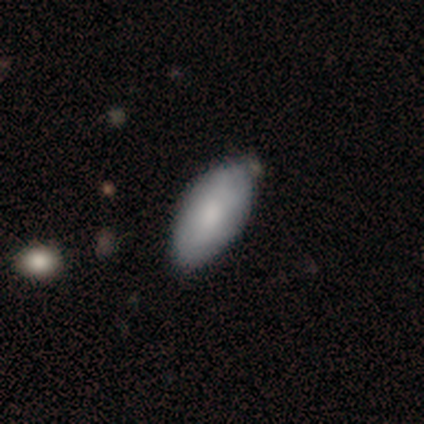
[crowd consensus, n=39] Morphology: type=smooth (72%); roundness=in between (86%); merging=none (36%).